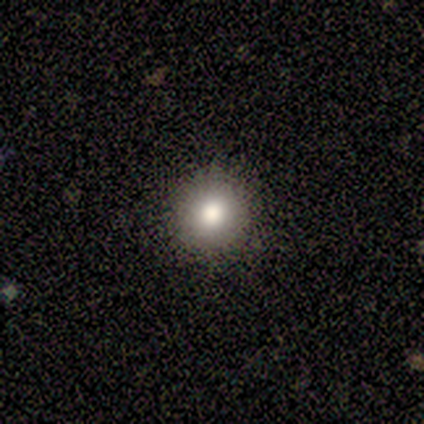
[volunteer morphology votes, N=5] Smooth or featured? 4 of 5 (80%) said smooth. How rounded? 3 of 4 (75%) said round. Merging? 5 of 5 (100%) said none.